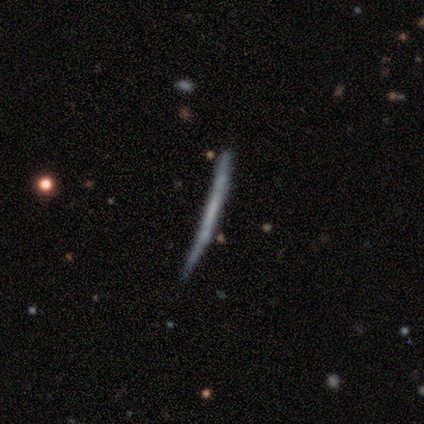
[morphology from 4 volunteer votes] Smooth or featured? smooth (50%, tied with featured or disk)
How rounded? cigar-shaped (100%)
Merging? none (100%)